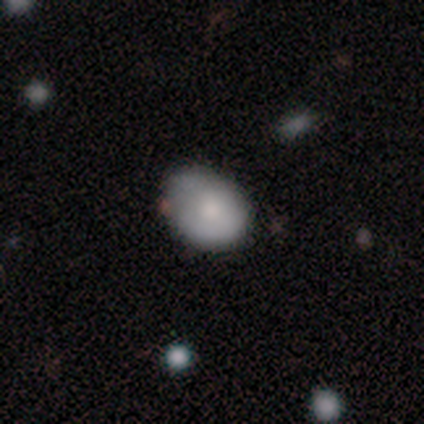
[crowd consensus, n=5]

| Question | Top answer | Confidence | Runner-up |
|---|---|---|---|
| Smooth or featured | smooth | 60% | featured or disk (40%) |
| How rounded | in between | 67% | round (33%) |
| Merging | none | 80% | minor disturbance (20%) |